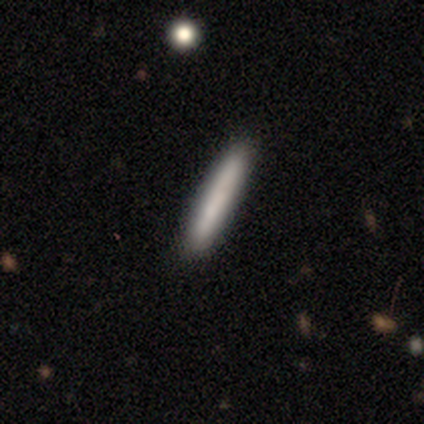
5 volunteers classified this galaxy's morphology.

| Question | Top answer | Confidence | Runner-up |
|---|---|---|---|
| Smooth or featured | smooth | 60% | featured or disk (40%) |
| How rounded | cigar-shaped | 100% | — |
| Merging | none | 100% | — |